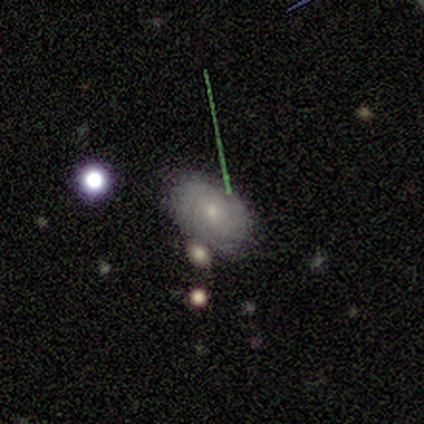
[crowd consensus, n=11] Smooth or featured?
  - featured or disk: 55% *
  - smooth: 45%
  - star or artifact: 0%
Edge-on disk?
  - no: 100% *
  - yes: 0%
Bar?
  - no: 83% *
  - weak: 17%
  - strong: 0%
Spiral arms?
  - yes: 83% *
  - no: 17%
Spiral winding?
  - tight: 100% *
  - medium: 0%
  - loose: 0%
Spiral arm count?
  - 4: 40% * (tied)
  - can't tell: 40% * (tied)
  - 2: 20%
  - 1: 0%
  - 3: 0%
  - more than 4: 0%
Bulge size?
  - small: 67% *
  - moderate: 33%
  - dominant: 0%
  - large: 0%
  - none: 0%
Merging?
  - none: 64% *
  - minor disturbance: 36%
  - major disturbance: 0%
  - merger: 0%